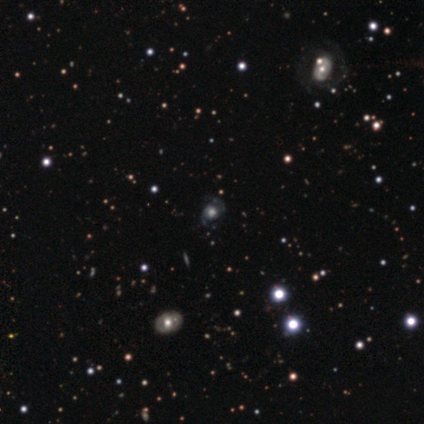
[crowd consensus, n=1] Smooth or featured? 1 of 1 (100%) said featured or disk. Edge-on disk? 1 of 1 (100%) said no. Bar? 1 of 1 (100%) said no. Spiral arms? 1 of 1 (100%) said yes. Spiral winding? 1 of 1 (100%) said medium. Spiral arm count? 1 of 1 (100%) said 2. Bulge size? 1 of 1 (100%) said dominant. Merging? 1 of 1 (100%) said none.